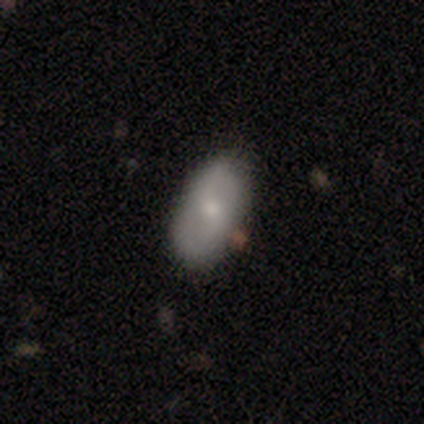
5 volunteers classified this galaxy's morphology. This appears to be a smooth galaxy with no disk features (60%) that is in between round and cigar-shaped (100%). Merging: none (100%).